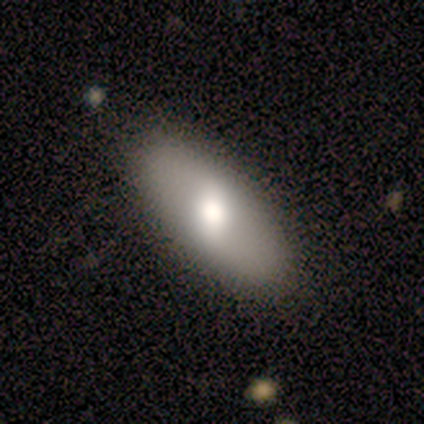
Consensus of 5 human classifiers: Smooth or featured?
  - smooth: 60% *
  - featured or disk: 40%
  - star or artifact: 0%
How rounded?
  - cigar-shaped: 67% *
  - in between: 33%
  - round: 0%
Merging?
  - none: 80% *
  - minor disturbance: 20%
  - major disturbance: 0%
  - merger: 0%